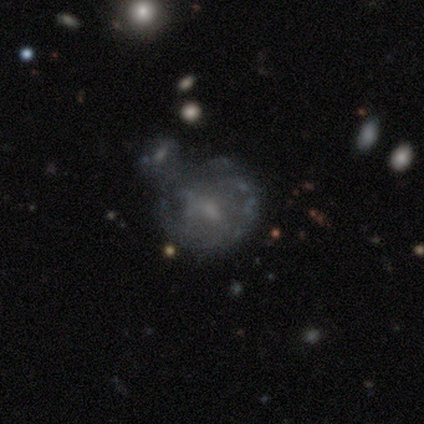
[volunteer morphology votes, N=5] A featured or disk galaxy (60%) with a weak bar (100%), no spiral arms (67%) and a moderate central bulge (33%, tied with small and none).

Vote fractions:
- Smooth or featured? featured or disk: 60% / smooth: 40% / star or artifact: 0%
- Edge-on disk? no: 100% / yes: 0%
- Bar? weak: 100% / strong: 0% / no: 0%
- Spiral arms? no: 67% / yes: 33%
- Bulge size? moderate: 33% (tied) / small: 33% (tied) / none: 33% (tied) / dominant: 0% / large: 0%
- Merging? major disturbance: 40% / none: 20% / minor disturbance: 20% / merger: 20%